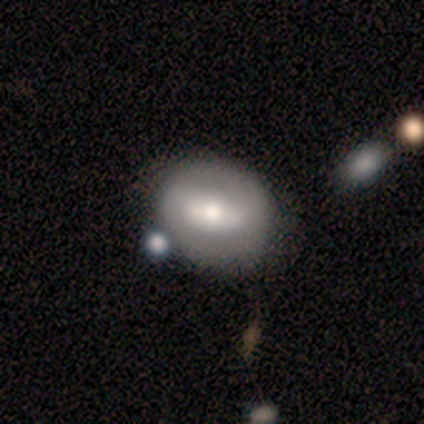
Q: Smooth or featured?
A: smooth (80%); runner-up: featured or disk (20%)
Q: How rounded?
A: round (75%); runner-up: in between (25%)
Q: Merging?
A: none (60%); runner-up: merger (40%)